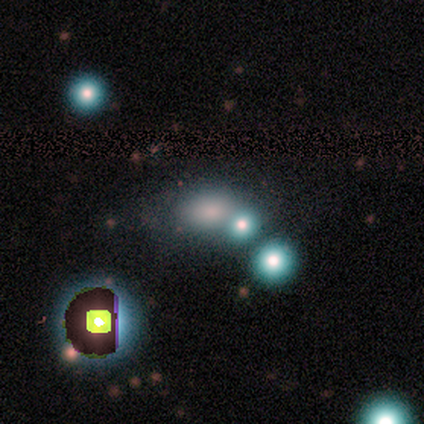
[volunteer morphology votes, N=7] smooth-or-featured: smooth: 71% | star or artifact: 29% | featured or disk: 0%
  how-rounded: in between: 80% | round: 20% | cigar-shaped: 0%
  merging: none: 100% | minor disturbance: 0% | major disturbance: 0% | merger: 0%